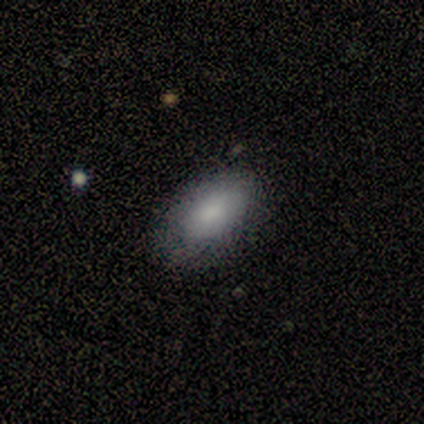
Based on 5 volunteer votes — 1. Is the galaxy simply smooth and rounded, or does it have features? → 80% smooth, 20% featured or disk, 0% star or artifact.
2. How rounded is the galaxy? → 100% in between, 0% round, 0% cigar-shaped.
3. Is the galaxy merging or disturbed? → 80% none, 20% minor disturbance, 0% major disturbance, 0% merger.